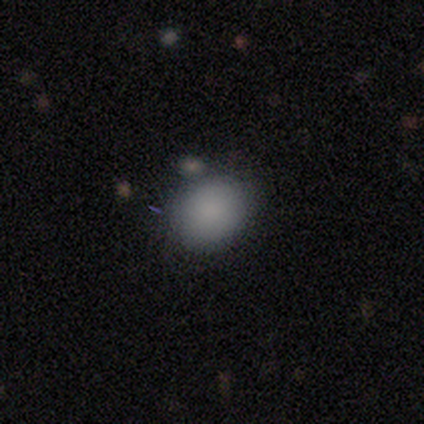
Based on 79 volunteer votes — Smooth or featured?
  - smooth: 91% *
  - star or artifact: 5%
  - featured or disk: 4%
How rounded?
  - round: 61% *
  - in between: 39%
  - cigar-shaped: 0%
Merging?
  - none: 43% *
  - merger: 12%
  - minor disturbance: 9%
  - major disturbance: 0%